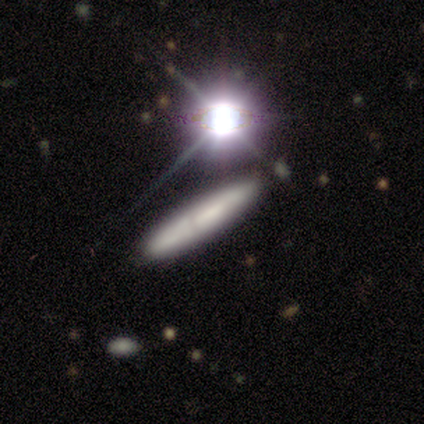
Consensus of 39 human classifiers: Smooth or featured? 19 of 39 (49%) said smooth. How rounded? 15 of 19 (79%) said cigar-shaped. Merging? 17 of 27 (63%) said none.